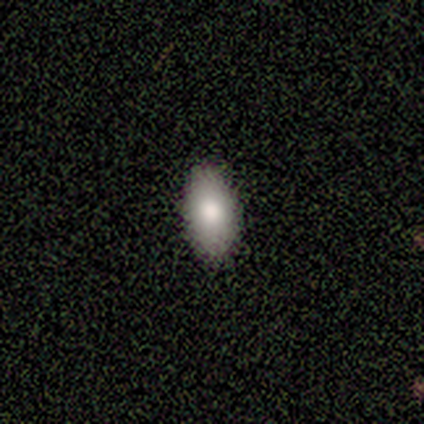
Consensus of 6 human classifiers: Q: Smooth or featured?
A: smooth (50%); runner-up: featured or disk (33%)
Q: How rounded?
A: round (67%); runner-up: in between (33%)
Q: Merging?
A: none (60%); runner-up: minor disturbance (20%)